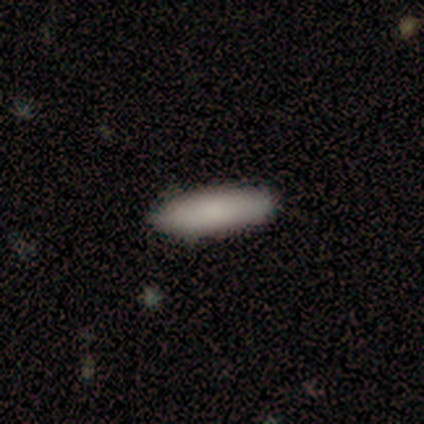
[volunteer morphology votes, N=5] smooth-or-featured: smooth: 100% | featured or disk: 0% | star or artifact: 0%
  how-rounded: in between: 60% | cigar-shaped: 40% | round: 0%
  merging: none: 80% | major disturbance: 20% | minor disturbance: 0% | merger: 0%